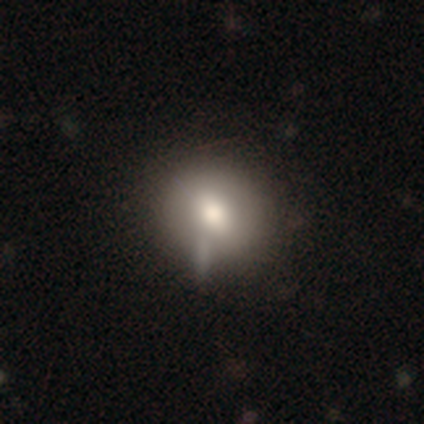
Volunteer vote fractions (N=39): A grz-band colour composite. It shows a smooth galaxy with no disk features (79%) that is round (81%). Merging: none (58%).